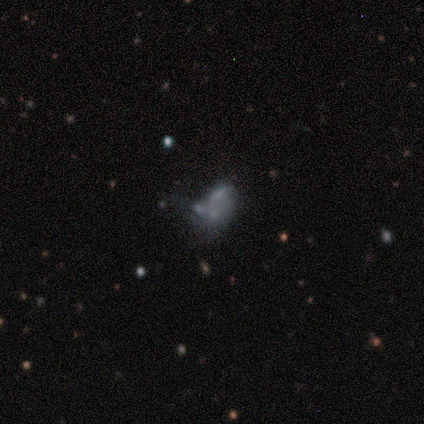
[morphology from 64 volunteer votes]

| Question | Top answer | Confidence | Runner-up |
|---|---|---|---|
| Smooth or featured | featured or disk | 53% | smooth (30%) |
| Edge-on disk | no | 100% | — |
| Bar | no | 100% | — |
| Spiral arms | no | 94% | yes (6%) |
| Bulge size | none | 94% | moderate (3%) |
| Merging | none | 40% | merger (34%) |